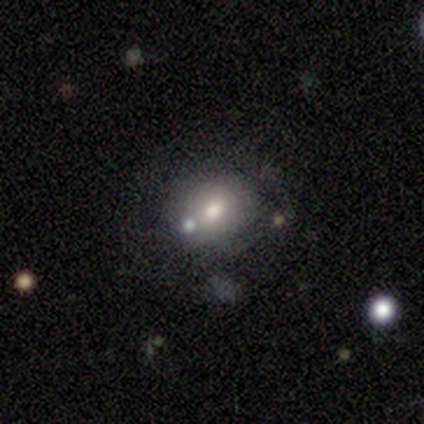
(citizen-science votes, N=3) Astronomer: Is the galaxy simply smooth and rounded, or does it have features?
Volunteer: smooth — 67%.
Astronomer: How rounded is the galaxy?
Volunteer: round — 100%.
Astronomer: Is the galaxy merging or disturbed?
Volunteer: none — 100%.